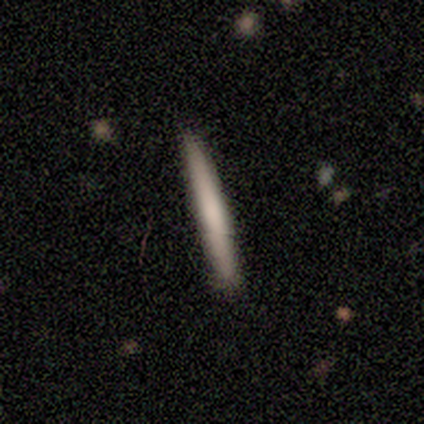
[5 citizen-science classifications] smooth-or-featured: featured or disk: 60% | smooth: 40% | star or artifact: 0%
  disk-edge-on: yes: 100% | no: 0%
    edge-on-bulge: none: 100% | boxy: 0% | rounded: 0%
  merging: none: 80% | minor disturbance: 20% | major disturbance: 0% | merger: 0%